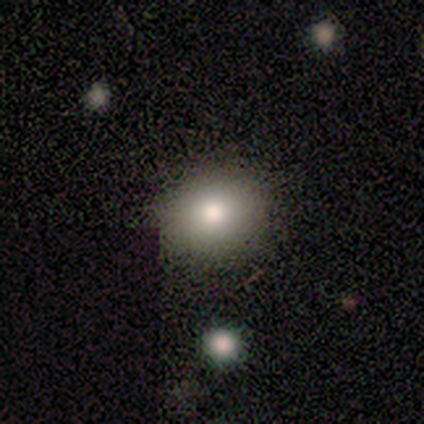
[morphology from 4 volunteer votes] Overall: smooth (75%). How rounded: round (67%; in between 33%). Merging: none (100%).